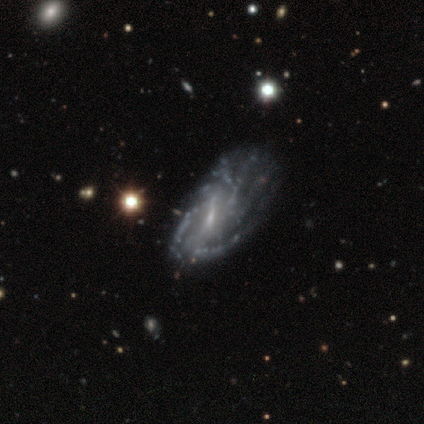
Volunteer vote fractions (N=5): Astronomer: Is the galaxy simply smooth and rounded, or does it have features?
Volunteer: featured or disk — 60% (runner-up: star or artifact, 40%).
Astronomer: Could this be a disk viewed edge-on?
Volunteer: no — 100%.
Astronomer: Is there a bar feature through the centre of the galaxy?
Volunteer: weak — 100%.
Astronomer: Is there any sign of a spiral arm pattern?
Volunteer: yes — 100%.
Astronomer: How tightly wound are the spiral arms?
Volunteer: tight — 67%.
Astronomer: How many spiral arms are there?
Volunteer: can't tell — 100%.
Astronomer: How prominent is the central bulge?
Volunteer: small — 67%.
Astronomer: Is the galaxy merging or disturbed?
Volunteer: none — 67%.